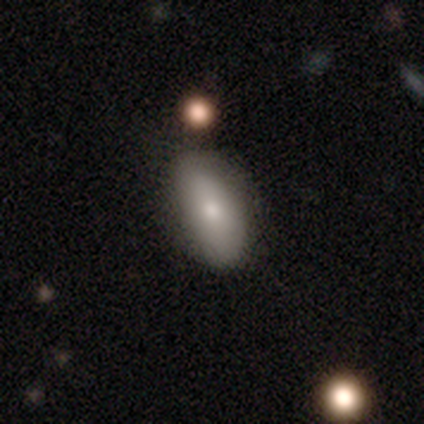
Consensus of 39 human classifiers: smooth 74%, featured or disk 18%, star or artifact 8%. Down the decision tree: how rounded — in between (93%); merging — none (81%).